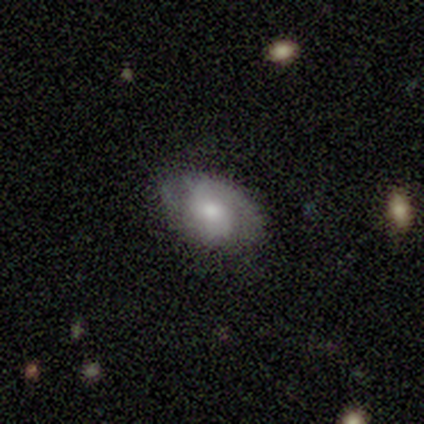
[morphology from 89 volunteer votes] This is possibly a featured or disk galaxy (58%). It is clearly not viewed edge-on (94%). Bar: possibly no (51%). Spiral arm pattern: likely yes (80%). Spiral arm count: clearly 2 (87%). Spiral winding: marginally medium (41%). Central bulge: likely moderate (61%). Merging: likely none (78%).